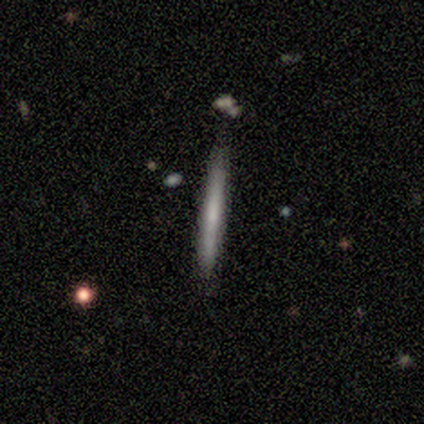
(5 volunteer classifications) A smooth galaxy with no disk features (80%) that is cigar-shaped (100%).

Vote fractions:
- Smooth or featured? smooth: 80% / featured or disk: 20% / star or artifact: 0%
- How rounded? cigar-shaped: 100% / round: 0% / in between: 0%
- Merging? none: 100% / minor disturbance: 0% / major disturbance: 0% / merger: 0%